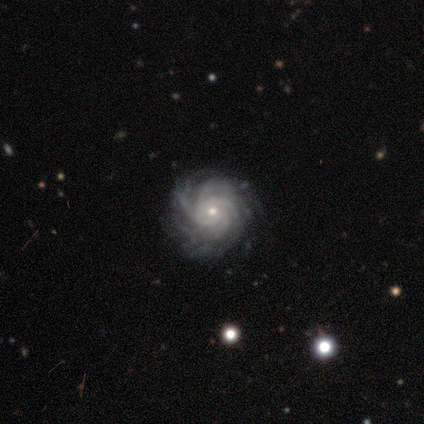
Smooth or featured? featured or disk (100%)
Edge-on disk? no (100%)
Bar? no (85%)
Spiral arms? yes (100%)
Spiral winding? tight (82%)
Spiral arm count? more than 4 (55%)
Bulge size? small (82%)
Merging? none (82%)